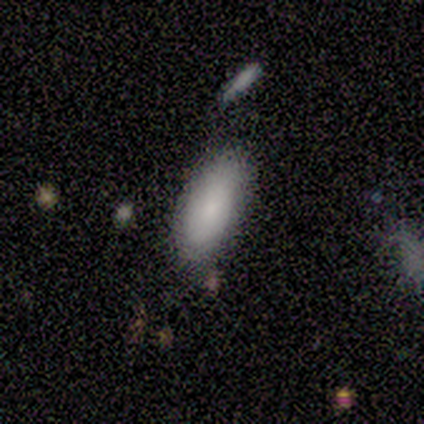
This is clearly a smooth galaxy (80%). How rounded: clearly in between (100%). Merging: possibly none (50%).